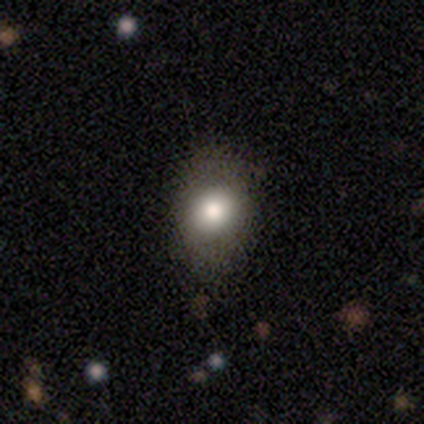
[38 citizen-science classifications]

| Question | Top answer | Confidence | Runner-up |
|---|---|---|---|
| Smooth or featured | smooth | 79% | featured or disk (11%) |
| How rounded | in between | 70% | round (30%) |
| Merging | none | 85% | minor disturbance (9%) |